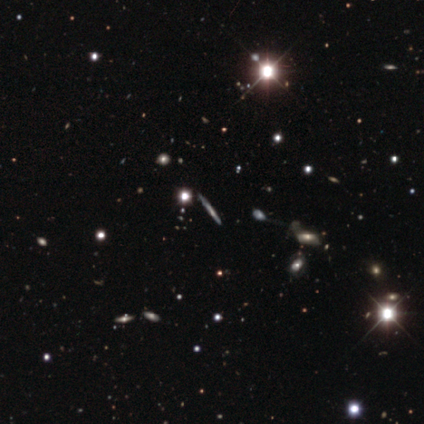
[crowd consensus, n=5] A star or artifact, not a galaxy (60%).